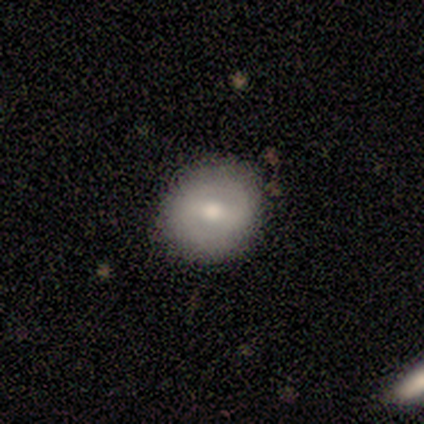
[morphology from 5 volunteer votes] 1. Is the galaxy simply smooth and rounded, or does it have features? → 60% smooth, 40% featured or disk, 0% star or artifact.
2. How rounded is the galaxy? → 100% round, 0% in between, 0% cigar-shaped.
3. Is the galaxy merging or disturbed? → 100% none, 0% minor disturbance, 0% major disturbance, 0% merger.